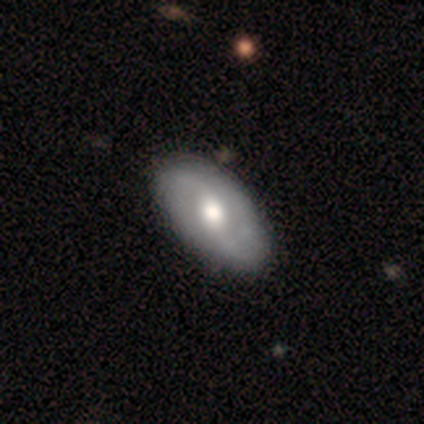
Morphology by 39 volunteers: Smooth or featured: featured or disk — 59% (smooth — 41%)
Edge-on disk: no — 100%
Bar: weak — 52% (no — 39%)
Spiral arms: yes — 87% (no — 13%)
Spiral winding: loose — 80% (tight — 10%)
Spiral arm count: 2 — 90% (4 — 5%)
Bulge size: moderate — 70% (large — 22%)
Merging: none — 67% (minor disturbance — 5%)